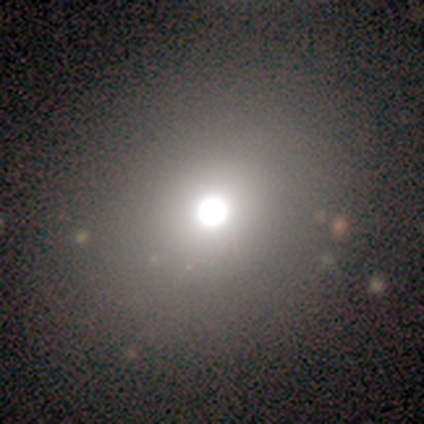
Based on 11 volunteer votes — Smooth or featured?
  - smooth: 82% *
  - featured or disk: 9%
  - star or artifact: 9%
How rounded?
  - round: 89% *
  - in between: 11%
  - cigar-shaped: 0%
Merging?
  - none: 80% *
  - minor disturbance: 20%
  - major disturbance: 0%
  - merger: 0%